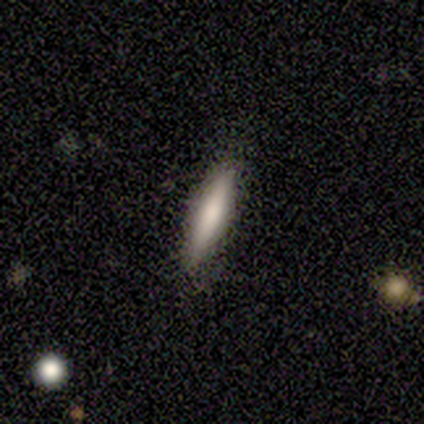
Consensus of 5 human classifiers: Smooth or featured?
  - smooth: 100% *
  - featured or disk: 0%
  - star or artifact: 0%
How rounded?
  - cigar-shaped: 80% *
  - in between: 20%
  - round: 0%
Merging?
  - none: 80% *
  - minor disturbance: 20%
  - major disturbance: 0%
  - merger: 0%